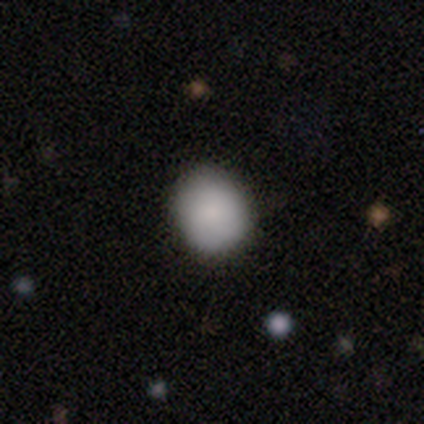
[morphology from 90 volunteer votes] This appears to be a smooth galaxy with no disk features (87%) that is round (78%). Merging: none (83%).